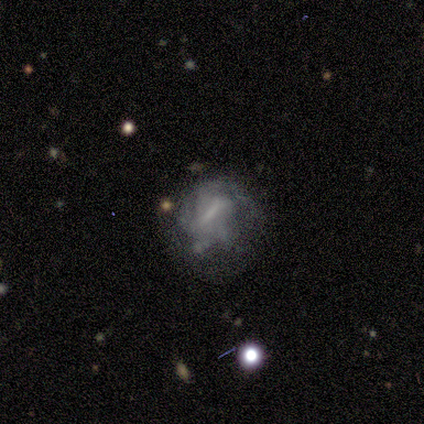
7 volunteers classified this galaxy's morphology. Smooth or featured? featured or disk (57%)
Edge-on disk? no (100%)
Bar? weak (50%, tied with no)
Spiral arms? no (100%)
Bulge size? none (75%)
Merging? none (60%)